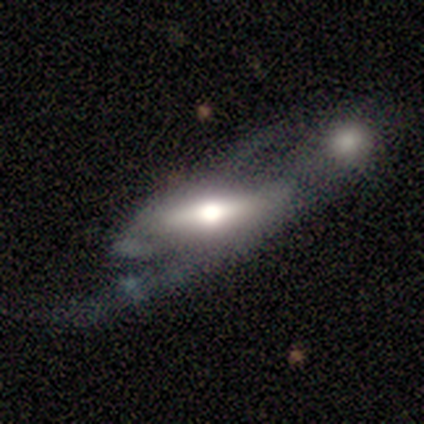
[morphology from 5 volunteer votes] Q: Smooth or featured?
A: featured or disk (80%); runner-up: smooth (20%)
Q: Edge-on disk?
A: no (100%)
Q: Bar?
A: strong (50%); tied with: no (50%)
Q: Spiral arms?
A: yes (75%); runner-up: no (25%)
Q: Spiral winding?
A: loose (67%); runner-up: tight (33%)
Q: Spiral arm count?
A: 2 (100%)
Q: Bulge size?
A: dominant (50%); tied with: moderate (50%)
Q: Merging?
A: none (80%); runner-up: major disturbance (20%)